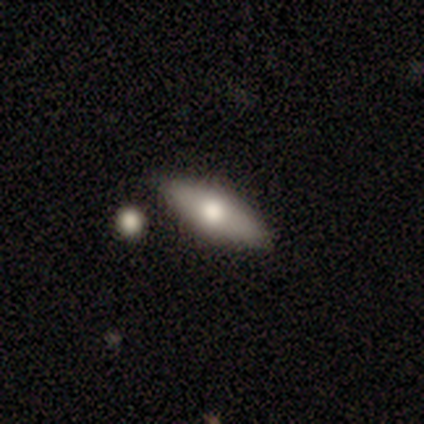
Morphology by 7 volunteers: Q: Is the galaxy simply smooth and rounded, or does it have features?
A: smooth — 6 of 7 (86%).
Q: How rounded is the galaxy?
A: in between — 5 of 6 (83%).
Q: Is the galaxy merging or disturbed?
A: none — 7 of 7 (100%).